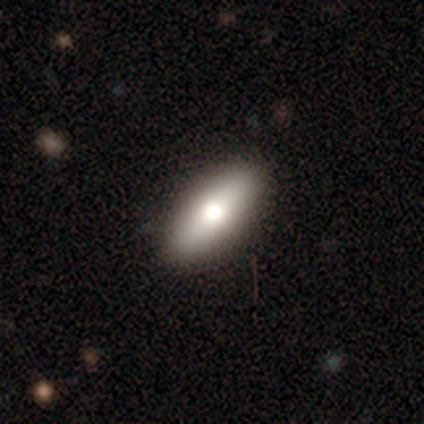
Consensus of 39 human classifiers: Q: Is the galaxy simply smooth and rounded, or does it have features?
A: smooth — 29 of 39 (74%).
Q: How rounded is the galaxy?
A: in between — 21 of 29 (72%).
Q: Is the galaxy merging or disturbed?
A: none — 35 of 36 (97%).